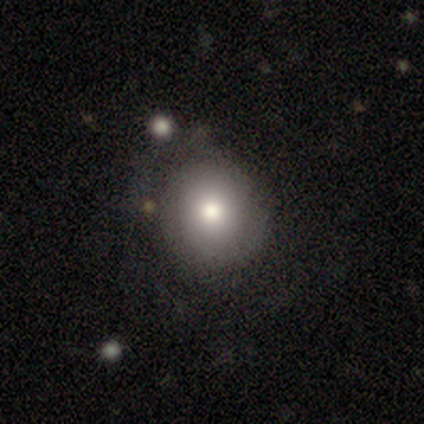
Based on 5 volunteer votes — This appears to be a smooth galaxy with no disk features (60%) that is round (100%). Merging: none (100%).